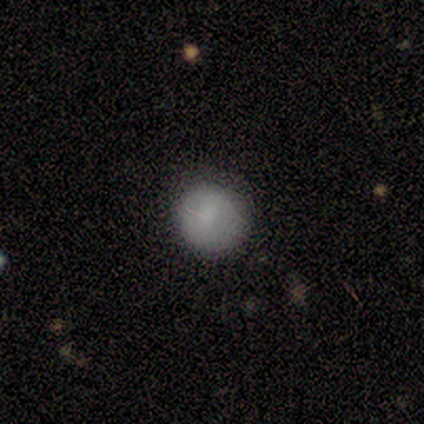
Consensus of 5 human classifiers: smooth_or_featured: smooth (p=0.80) [alt: star or artifact p=0.20]
how_rounded: round (p=1.00)
merging: none (p=0.75) [alt: minor disturbance p=0.25]